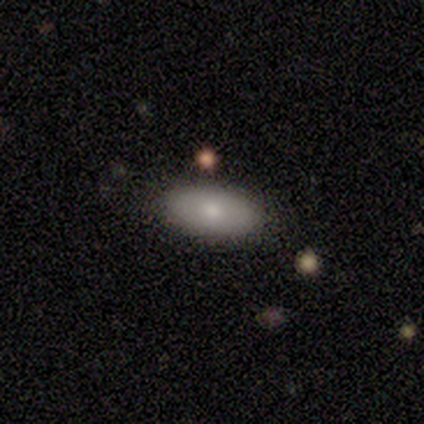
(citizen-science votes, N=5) Smooth or featured?
  - smooth: 100% *
  - featured or disk: 0%
  - star or artifact: 0%
How rounded?
  - in between: 80% *
  - round: 20%
  - cigar-shaped: 0%
Merging?
  - none: 100% *
  - minor disturbance: 0%
  - major disturbance: 0%
  - merger: 0%